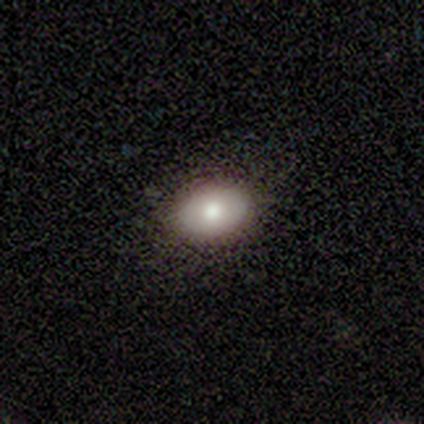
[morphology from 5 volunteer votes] This is likely a smooth galaxy (60%). How rounded: clearly in between (100%). Merging: clearly none (100%).